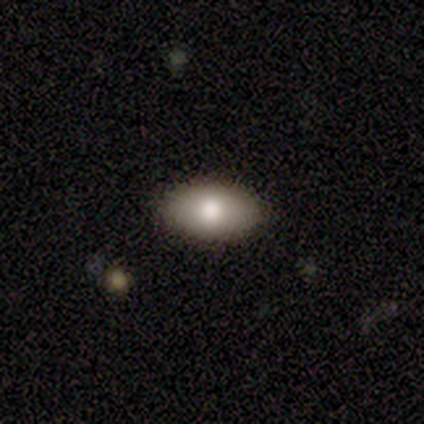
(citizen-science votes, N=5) A smooth galaxy with no disk features (80%) that is in between round and cigar-shaped (100%). Merging: none (100%).